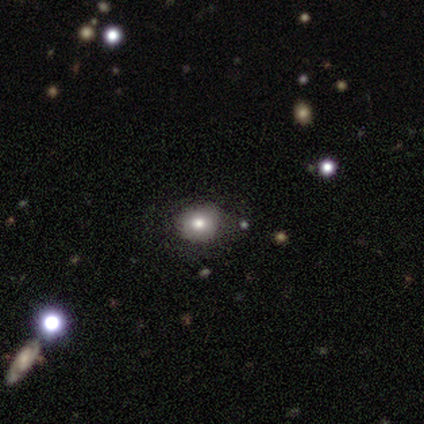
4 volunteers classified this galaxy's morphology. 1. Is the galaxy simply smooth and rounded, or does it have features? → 100% smooth, 0% featured or disk, 0% star or artifact.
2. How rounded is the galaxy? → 75% round, 25% in between, 0% cigar-shaped.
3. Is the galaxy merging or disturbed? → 100% none, 0% minor disturbance, 0% major disturbance, 0% merger.